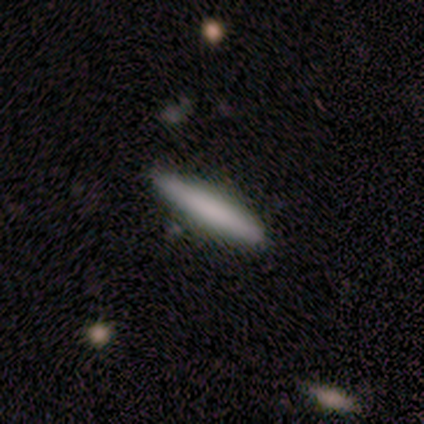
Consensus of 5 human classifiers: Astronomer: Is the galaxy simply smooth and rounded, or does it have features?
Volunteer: featured or disk — 60% (runner-up: smooth, 40%).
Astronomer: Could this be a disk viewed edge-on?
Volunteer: yes — 100%.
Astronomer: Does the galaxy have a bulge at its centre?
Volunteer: none — 67%.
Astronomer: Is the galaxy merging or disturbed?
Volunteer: none — 100%.